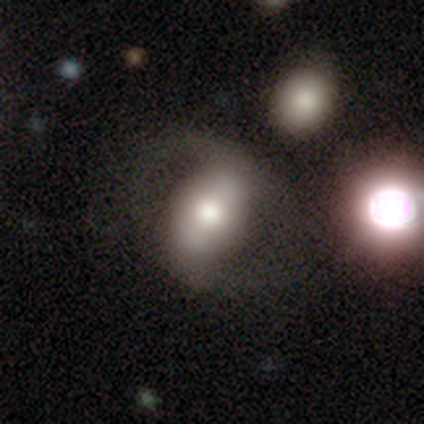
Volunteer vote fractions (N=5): This is likely a smooth galaxy (60%). How rounded: clearly in between (100%). Merging: clearly none (80%).